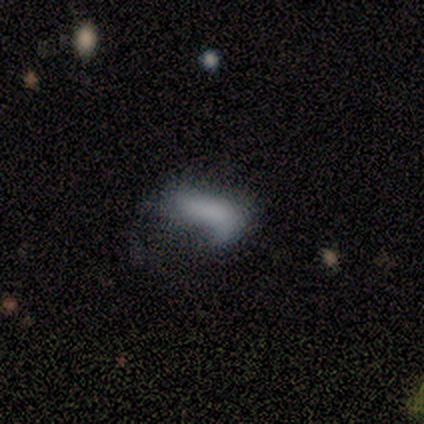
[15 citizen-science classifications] Smooth or featured: smooth — 60% (featured or disk — 33%)
How rounded: in between — 100%
Merging: none — 36% (tied with major disturbance — 36%)